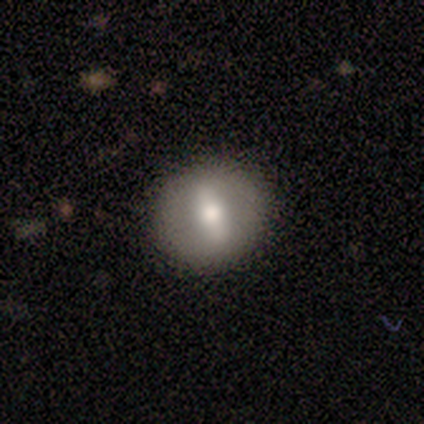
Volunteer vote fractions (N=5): Smooth or featured? featured or disk (60%)
Edge-on disk? no (100%)
Bar? weak (100%)
Spiral arms? no (100%)
Bulge size? small (100%)
Merging? none (100%)